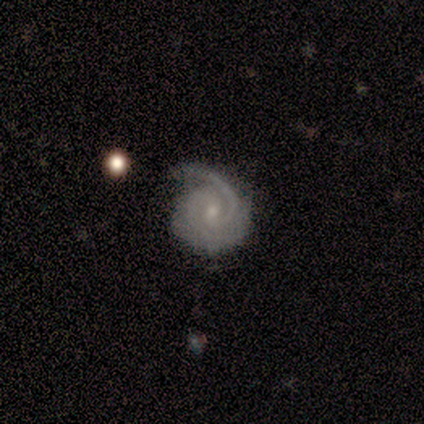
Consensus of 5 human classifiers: Volunteers were most divided on "spiral winding" (2-way tie): tight: 40%, medium: 40%, loose: 20%. More confident: smooth or featured — featured or disk (100%); edge-on disk — no (100%); spiral arms — yes (100%); spiral arm count — 2 (100%); bulge size — small (80%); merging — none (80%); bar — no (60%).